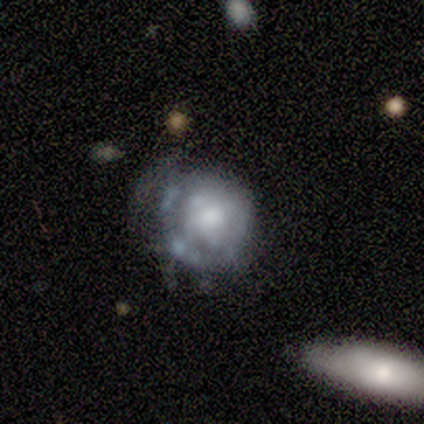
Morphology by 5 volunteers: Smooth or featured: featured or disk — 80% (smooth — 20%)
Edge-on disk: no — 100%
Bar: no — 100%
Spiral arms: yes — 50% (tied with no — 50%)
Spiral winding: loose — 100%
Spiral arm count: can't tell — 100%
Bulge size: moderate — 75% (large — 25%)
Merging: major disturbance — 60% (minor disturbance — 40%)